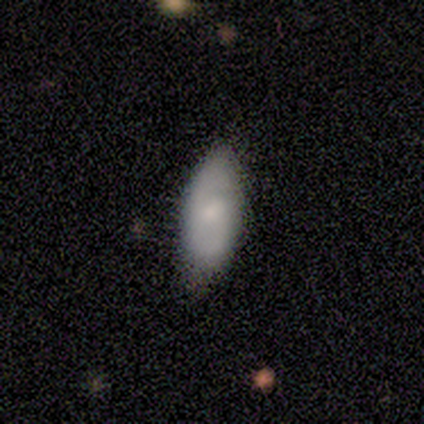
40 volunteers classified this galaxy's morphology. A smooth galaxy with no disk features (55%) that is in between round and cigar-shaped (91%). Merging: none (79%).